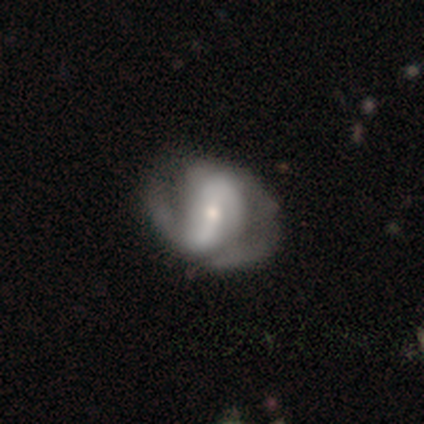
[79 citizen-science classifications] This appears to be a featured or disk galaxy (87%) with a strong bar (48%), 2 (75%) medium (45%) spiral arms (90%) and a small central bulge (64%). Merging: none (28%).